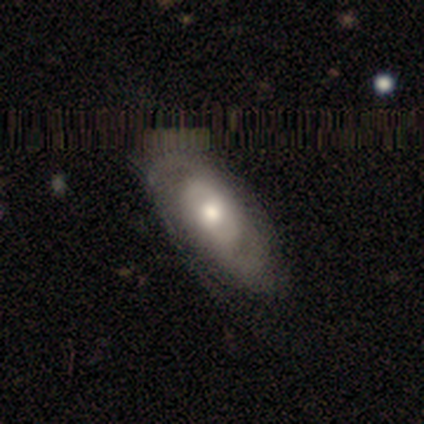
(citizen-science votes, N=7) A featured or disk galaxy (71%) with no bar (80%), 2 (60%) medium (60%) spiral arms (100%) and a moderate central bulge (60%). Merging: none (43%, tied with minor disturbance).